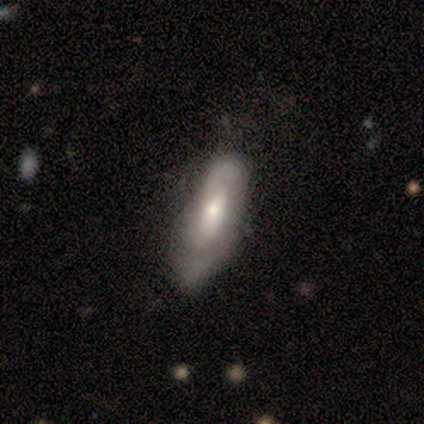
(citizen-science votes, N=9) featured or disk 89%, smooth 11%, star or artifact 0%. Down the decision tree: edge-on disk — no (88%); bar — no (57%); spiral arms — yes (86%); spiral arm count — can't tell (50%); spiral winding — tight (83%); bulge size — moderate (57%); merging — none (67%).